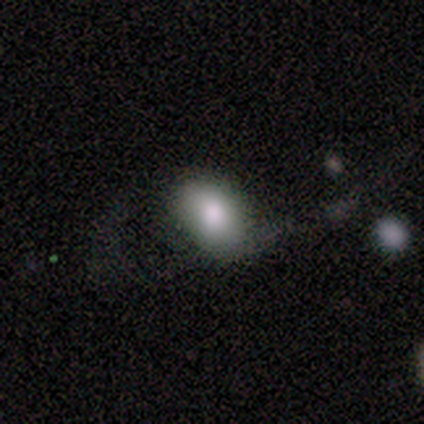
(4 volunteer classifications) smooth_or_featured: smooth (p=1.00)
how_rounded: in between (p=1.00)
merging: minor disturbance (p=0.50) [alt: none p=0.25]